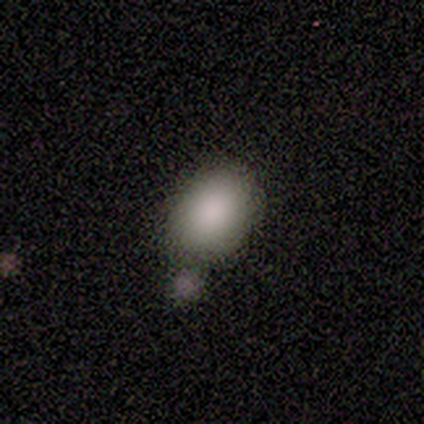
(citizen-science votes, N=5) This is clearly a smooth galaxy (100%). How rounded: clearly in between (100%). Merging: marginally none (40%, tied with merger).